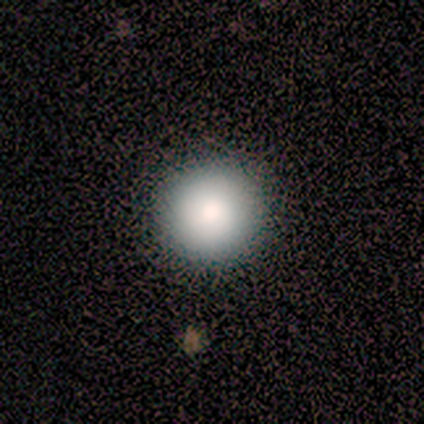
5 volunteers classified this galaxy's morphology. Smooth or featured: smooth — 80% (star or artifact — 20%)
How rounded: round — 100%
Merging: none — 100%